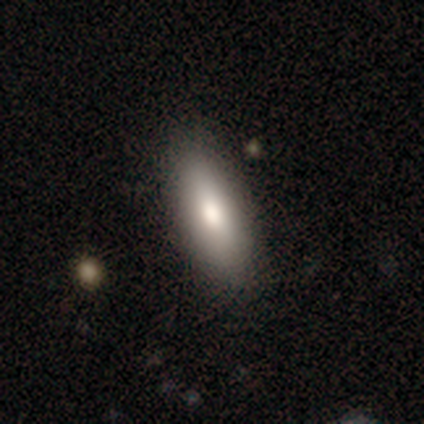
Overall: smooth (88%). How rounded: in between (69%; cigar-shaped 31%). Merging: none (90%).